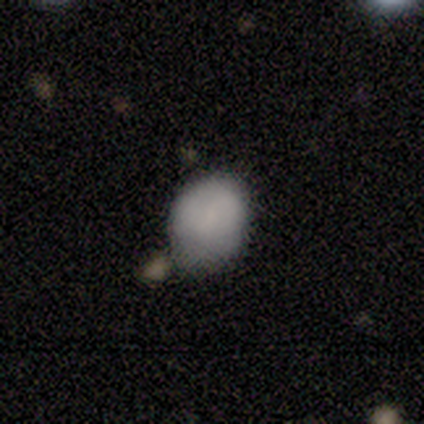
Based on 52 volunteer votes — Overall: smooth (75%). How rounded: in between (62%; round 38%). Merging: none (52%; minor disturbance 26%).